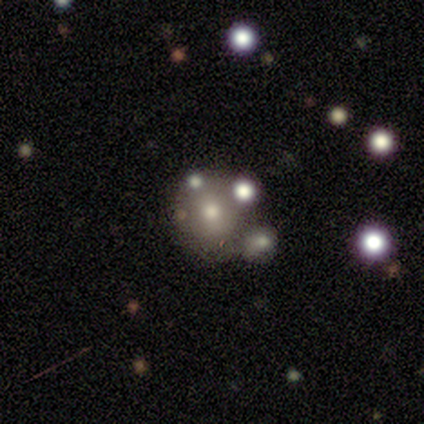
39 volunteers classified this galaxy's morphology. A smooth galaxy with no disk features (67%) that is round (81%). Merging: merger (34%).